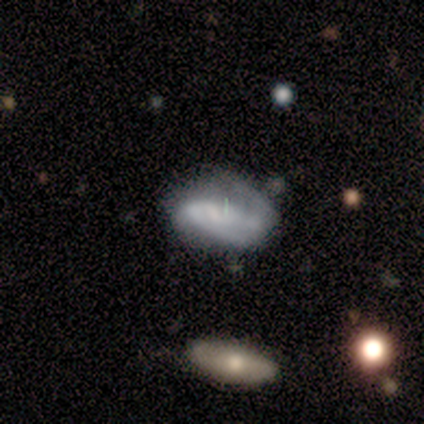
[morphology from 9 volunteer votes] A featured or disk galaxy (56%) with a weak bar (50%), 2 (100%) loose (75%) spiral arms (100%) and no central bulge (75%). Merging: none (43%, tied with minor disturbance).